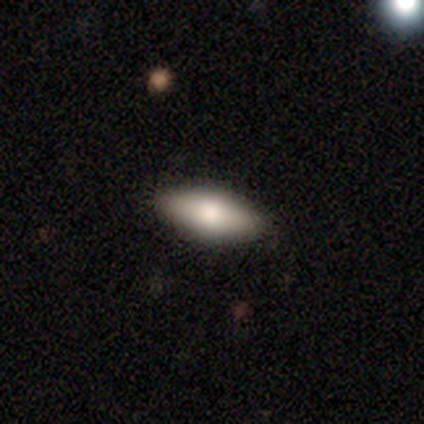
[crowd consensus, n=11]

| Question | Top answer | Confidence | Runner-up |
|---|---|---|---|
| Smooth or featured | smooth | 91% | featured or disk (9%) |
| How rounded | in between | 100% | — |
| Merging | none | 91% | minor disturbance (9%) |